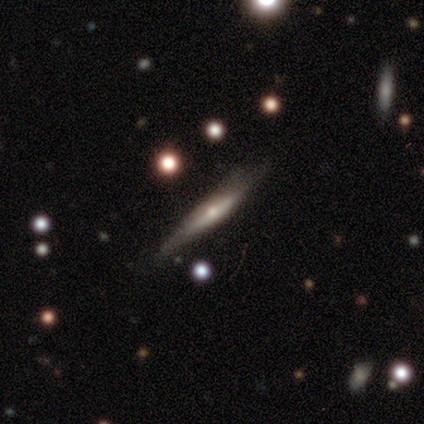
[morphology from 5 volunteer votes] Q: Smooth or featured?
A: featured or disk (60%); runner-up: smooth (40%)
Q: Edge-on disk?
A: yes (67%); runner-up: no (33%)
Q: Edge-on bulge?
A: rounded (100%)
Q: Merging?
A: none (60%); runner-up: minor disturbance (20%)